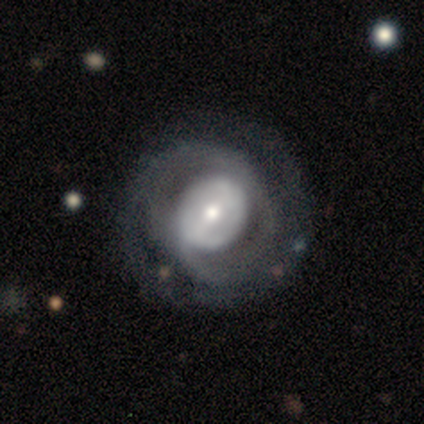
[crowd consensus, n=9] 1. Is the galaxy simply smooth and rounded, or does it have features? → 89% featured or disk, 11% star or artifact, 0% smooth.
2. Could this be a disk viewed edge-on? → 88% no, 12% yes.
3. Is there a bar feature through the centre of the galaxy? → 71% weak, 14% strong, 14% no.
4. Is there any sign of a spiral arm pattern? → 71% yes, 29% no.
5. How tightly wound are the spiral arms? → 40% medium (tied), 40% loose (tied), 20% tight.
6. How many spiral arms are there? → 80% 2, 20% can't tell, 0% 1, 0% 3, 0% 4, 0% more than 4.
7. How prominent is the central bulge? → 57% small, 29% large, 14% moderate, 0% dominant, 0% none.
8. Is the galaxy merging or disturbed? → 75% none, 25% minor disturbance, 0% major disturbance, 0% merger.